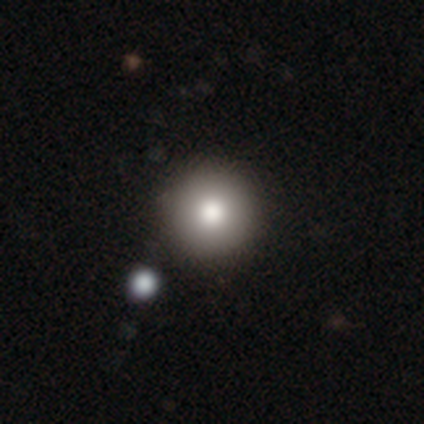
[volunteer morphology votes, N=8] A smooth galaxy with no disk features (88%) that is round (100%).

Vote fractions:
- Smooth or featured? smooth: 88% / star or artifact: 12% / featured or disk: 0%
- How rounded? round: 100% / in between: 0% / cigar-shaped: 0%
- Merging? none: 100% / minor disturbance: 0% / major disturbance: 0% / merger: 0%